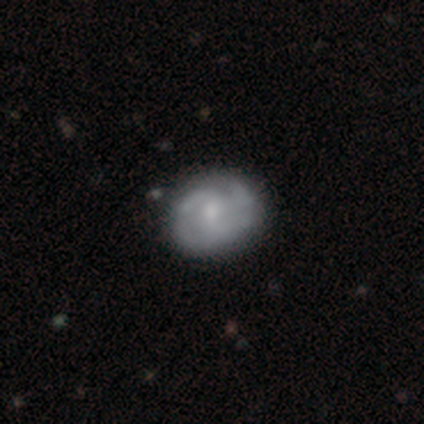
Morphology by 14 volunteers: A featured or disk galaxy (93%) with no bar (62%), 3 (50%) tight (50%, tied with medium) spiral arms (92%) and a moderate central bulge (54%). Merging: none (86%).